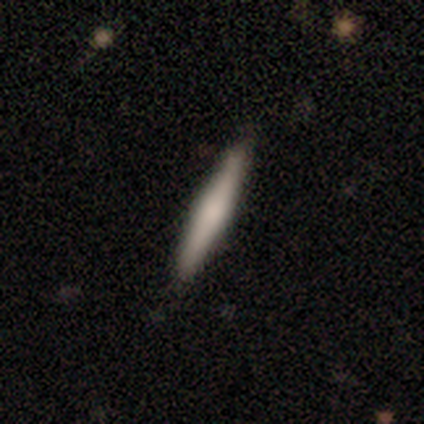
smooth 62%, featured or disk 36%, star or artifact 2%. Down the decision tree: how rounded — cigar-shaped (89%); merging — none (90%).